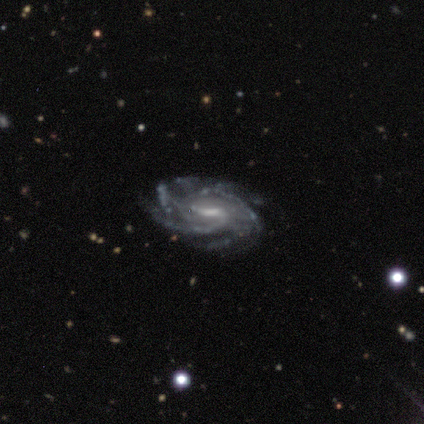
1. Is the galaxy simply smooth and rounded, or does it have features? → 100% featured or disk, 0% smooth, 0% star or artifact.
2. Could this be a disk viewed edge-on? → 100% no, 0% yes.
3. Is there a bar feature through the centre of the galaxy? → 60% weak, 40% strong, 0% no.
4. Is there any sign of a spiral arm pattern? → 100% yes, 0% no.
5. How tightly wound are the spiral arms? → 60% tight, 40% medium, 0% loose.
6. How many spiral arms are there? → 40% 4, 20% 3, 20% more than 4, 20% can't tell, 0% 1, 0% 2.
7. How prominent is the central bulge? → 80% moderate, 20% small, 0% dominant, 0% large, 0% none.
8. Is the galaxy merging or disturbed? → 80% none, 20% minor disturbance, 0% major disturbance, 0% merger.